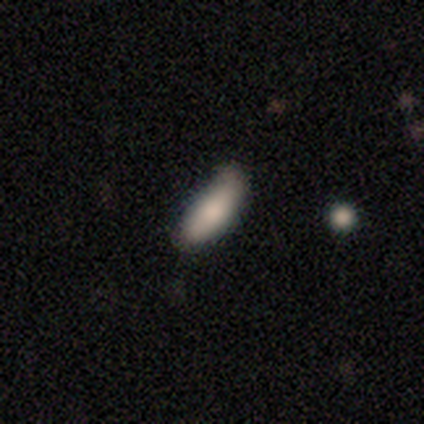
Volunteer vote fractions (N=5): Smooth or featured? smooth (60%)
How rounded? in between (100%)
Merging? minor disturbance (67%)